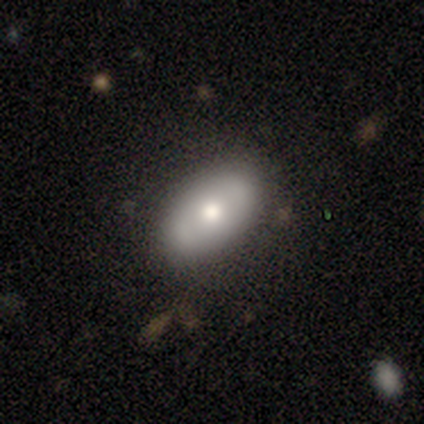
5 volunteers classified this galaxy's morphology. A smooth galaxy with no disk features (60%) that is in between round and cigar-shaped (100%). Merging: none (80%).